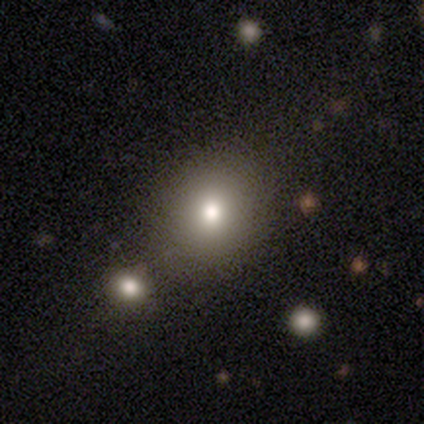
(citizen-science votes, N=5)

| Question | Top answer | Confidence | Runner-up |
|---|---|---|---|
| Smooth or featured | smooth | 80% | star or artifact (20%) |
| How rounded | round | 75% | in between (25%) |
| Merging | none | 75% | merger (25%) |